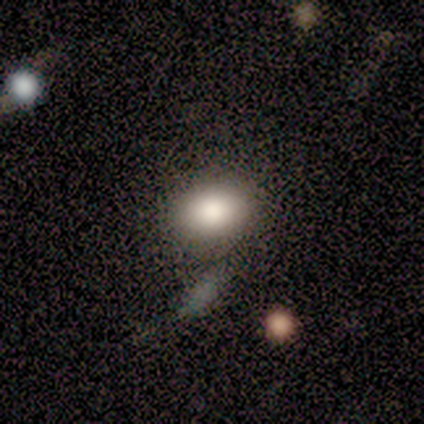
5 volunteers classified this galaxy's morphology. A smooth galaxy with no disk features (100%) that is round (60%).

Vote fractions:
- Smooth or featured? smooth: 100% / featured or disk: 0% / star or artifact: 0%
- How rounded? round: 60% / in between: 40% / cigar-shaped: 0%
- Merging? none: 80% / merger: 20% / minor disturbance: 0% / major disturbance: 0%